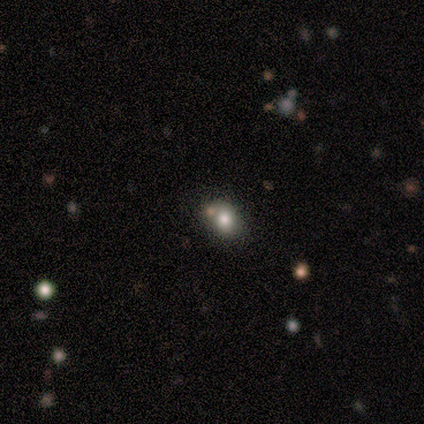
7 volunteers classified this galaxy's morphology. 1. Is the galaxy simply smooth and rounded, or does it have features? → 43% smooth, 29% featured or disk, 29% star or artifact.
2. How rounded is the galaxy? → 67% round, 33% in between, 0% cigar-shaped.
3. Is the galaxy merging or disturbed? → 40% none (tied), 40% minor disturbance (tied), 20% merger, 0% major disturbance.